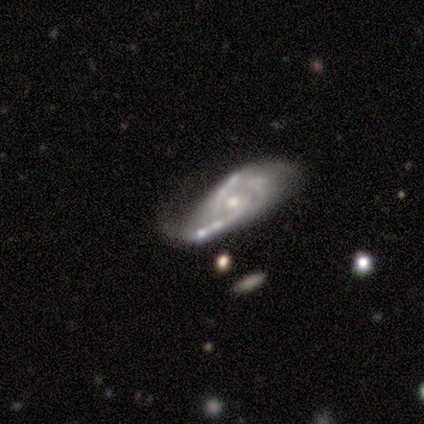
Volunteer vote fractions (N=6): This appears to be a featured or disk galaxy (100%) with no bar (67%), 2 (67%) tight (67%) spiral arms (100%) and a small central bulge (67%). Merging: none (83%).